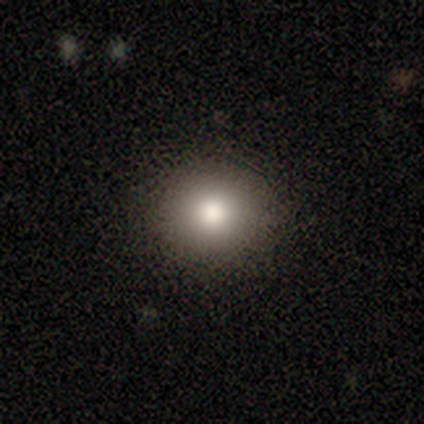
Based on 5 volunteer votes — A smooth galaxy with no disk features (80%) that is round (100%). Merging: none (100%).